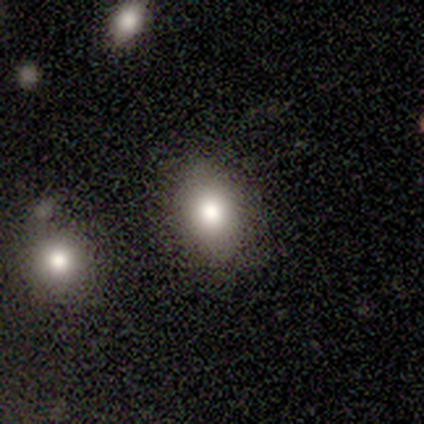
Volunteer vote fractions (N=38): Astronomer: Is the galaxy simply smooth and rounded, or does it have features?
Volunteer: smooth — 74%.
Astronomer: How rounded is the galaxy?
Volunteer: in between — 86%.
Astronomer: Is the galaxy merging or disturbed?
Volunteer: none — 65%.